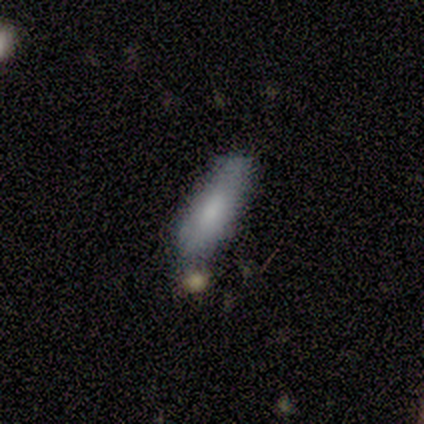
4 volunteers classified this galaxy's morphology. smooth_or_featured: smooth (p=0.50) [tied with: featured or disk p=0.50]
how_rounded: in between (p=0.50) [tied with: cigar-shaped p=0.50]
merging: none (p=0.50) [tied with: minor disturbance p=0.50]